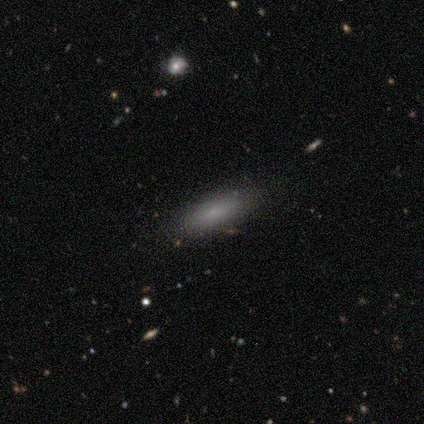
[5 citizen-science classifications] Smooth or featured? 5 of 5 (100%) said smooth. How rounded? 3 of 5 (60%) said cigar-shaped. Merging? 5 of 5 (100%) said none.